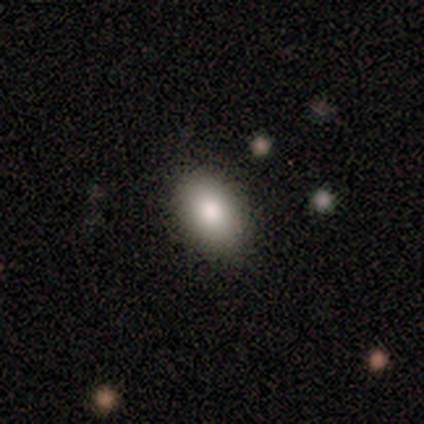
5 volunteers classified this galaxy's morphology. A smooth galaxy with no disk features (100%) that is in between round and cigar-shaped (100%). Merging: none (100%).